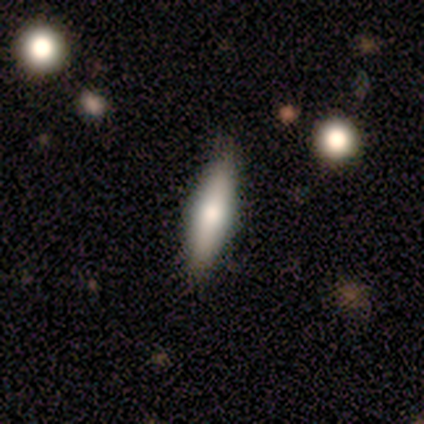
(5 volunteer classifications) Morphology: type=smooth (60%); roundness=cigar-shaped (100%); merging=none (80%).